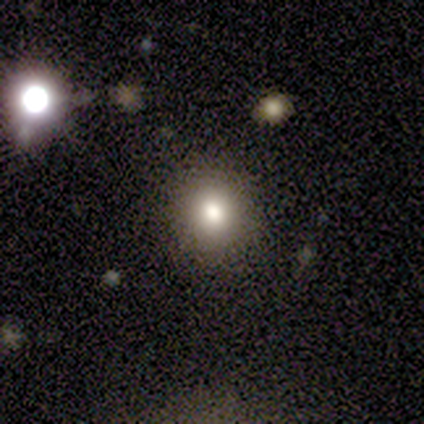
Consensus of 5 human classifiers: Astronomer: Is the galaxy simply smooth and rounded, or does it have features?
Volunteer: smooth — 60%.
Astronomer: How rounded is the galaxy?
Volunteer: round — 100%.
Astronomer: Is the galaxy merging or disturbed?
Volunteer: none — 100%.